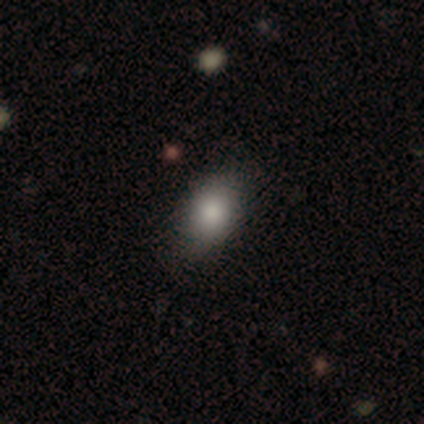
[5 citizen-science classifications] Smooth or featured? 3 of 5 (60%) said smooth. How rounded? 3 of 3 (100%) said in between. Merging? 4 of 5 (80%) said none.